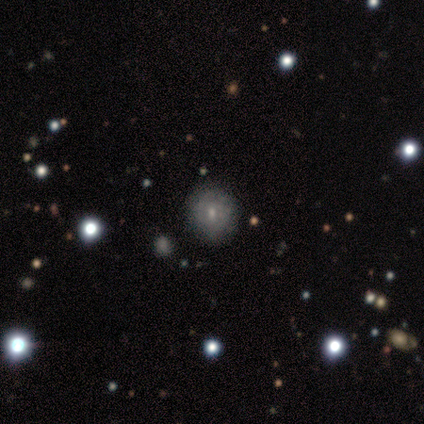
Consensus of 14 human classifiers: This appears to be a smooth galaxy with no disk features (57%) that is round (75%). Merging: none (80%).